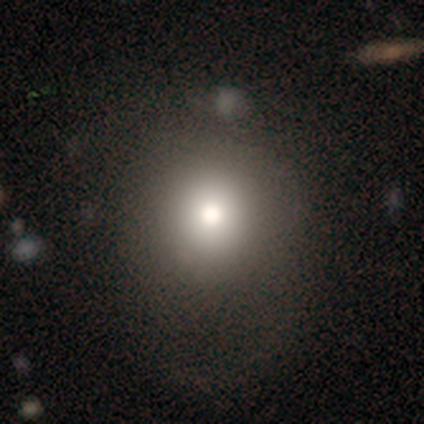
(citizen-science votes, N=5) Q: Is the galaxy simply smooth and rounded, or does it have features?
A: smooth — 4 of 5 (80%).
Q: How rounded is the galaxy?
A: round — 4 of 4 (100%).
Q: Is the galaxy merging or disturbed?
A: none — 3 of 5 (60%).